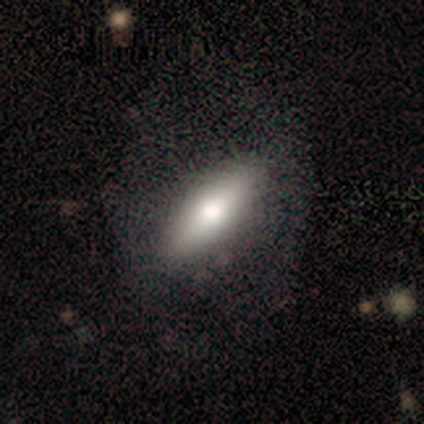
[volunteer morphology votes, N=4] smooth_or_featured: smooth (p=1.00)
how_rounded: cigar-shaped (p=0.75) [alt: in between p=0.25]
merging: none (p=1.00)